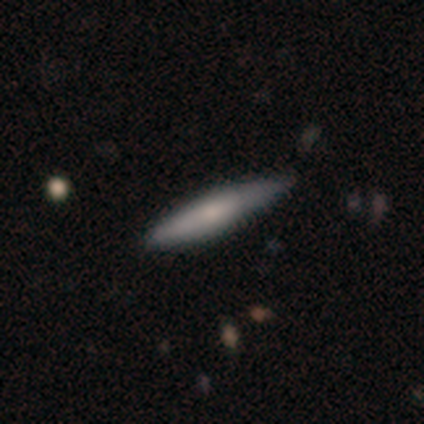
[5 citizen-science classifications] Smooth or featured? smooth (80%)
How rounded? cigar-shaped (100%)
Merging? none (100%)